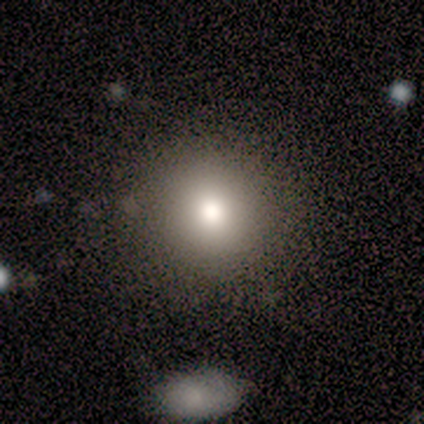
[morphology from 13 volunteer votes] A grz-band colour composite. It shows a smooth galaxy with no disk features (92%) that is round (100%). Merging: none (83%).